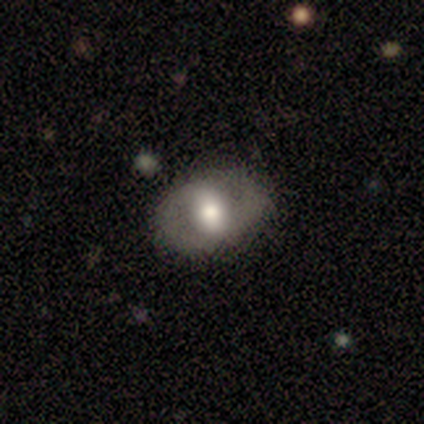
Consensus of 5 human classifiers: A featured or disk galaxy (60%) with a strong bar (67%), 2 (100%) loose (67%) spiral arms (100%) and a moderate central bulge (67%). Merging: none (100%).